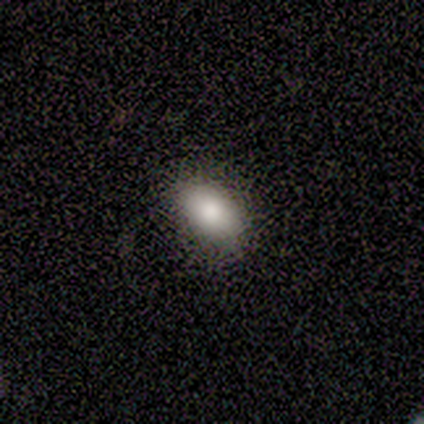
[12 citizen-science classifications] smooth-or-featured: smooth: 83% | star or artifact: 17% | featured or disk: 0%
  how-rounded: in between: 100% | round: 0% | cigar-shaped: 0%
  merging: none: 90% | minor disturbance: 10% | major disturbance: 0% | merger: 0%